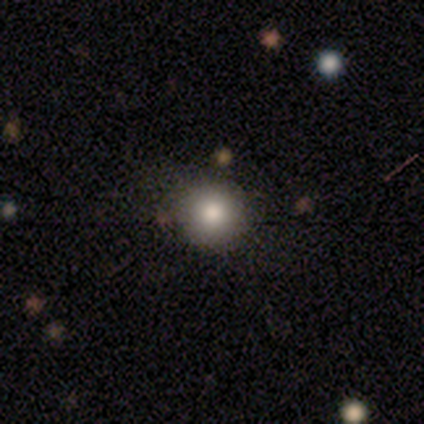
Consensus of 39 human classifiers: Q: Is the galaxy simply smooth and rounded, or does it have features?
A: smooth — 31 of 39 (79%).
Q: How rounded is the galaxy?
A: round — 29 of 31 (94%).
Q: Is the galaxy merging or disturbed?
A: none — 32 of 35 (91%).